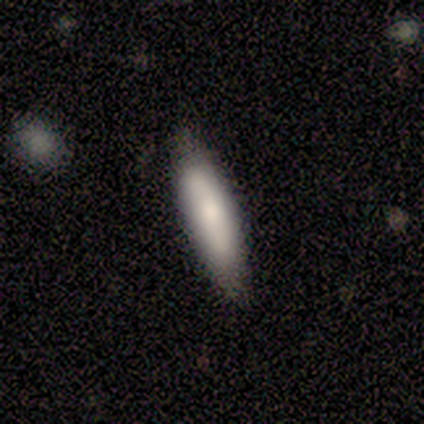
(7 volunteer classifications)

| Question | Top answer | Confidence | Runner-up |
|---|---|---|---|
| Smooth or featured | smooth | 100% | — |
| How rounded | cigar-shaped | 57% | in between (43%) |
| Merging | none | 100% | — |